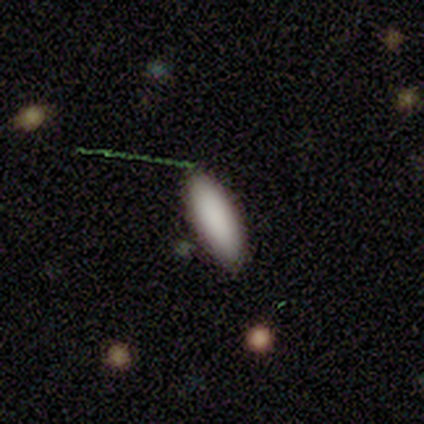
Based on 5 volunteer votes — Morphology: type=smooth (100%); roundness=in between (60%); merging=none (100%).